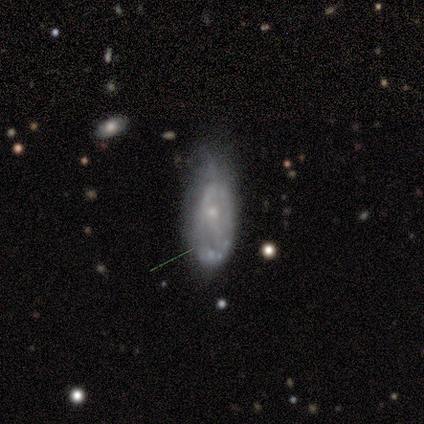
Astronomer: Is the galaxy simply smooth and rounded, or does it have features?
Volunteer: featured or disk — 57% (runner-up: smooth, 43%).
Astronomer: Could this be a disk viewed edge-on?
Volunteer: yes — 50%, tied with no at 50%.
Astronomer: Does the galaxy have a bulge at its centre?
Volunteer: rounded — 100%.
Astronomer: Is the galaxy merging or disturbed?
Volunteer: minor disturbance — 71%.